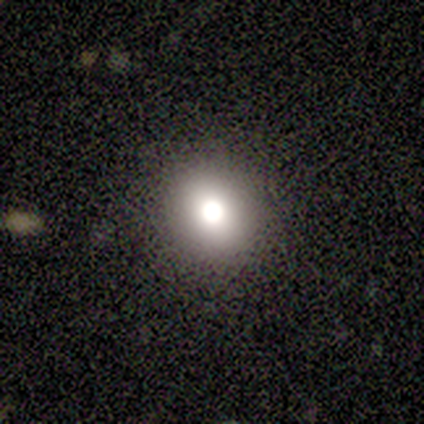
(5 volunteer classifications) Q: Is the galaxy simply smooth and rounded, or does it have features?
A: smooth — 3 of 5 (60%).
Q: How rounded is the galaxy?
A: round — 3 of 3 (100%).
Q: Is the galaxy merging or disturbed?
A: none — 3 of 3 (100%).